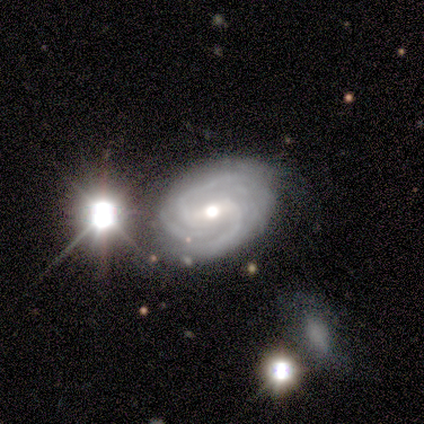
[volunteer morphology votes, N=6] A featured or disk galaxy (100%) with a strong bar (33%, tied with weak and no), 2 (50%) tight (50%, tied with medium) spiral arms (100%) and a moderate central bulge (83%).

Vote fractions:
- Smooth or featured? featured or disk: 100% / smooth: 0% / star or artifact: 0%
- Edge-on disk? no: 100% / yes: 0%
- Bar? strong: 33% (tied) / weak: 33% (tied) / no: 33% (tied)
- Spiral arms? yes: 100% / no: 0%
- Spiral winding? tight: 50% (tied) / medium: 50% (tied) / loose: 0%
- Spiral arm count? 2: 50% / 3: 33% / can't tell: 17% / 1: 0% / 4: 0% / more than 4: 0%
- Bulge size? moderate: 83% / small: 17% / dominant: 0% / large: 0% / none: 0%
- Merging? none: 83% / minor disturbance: 17% / major disturbance: 0% / merger: 0%